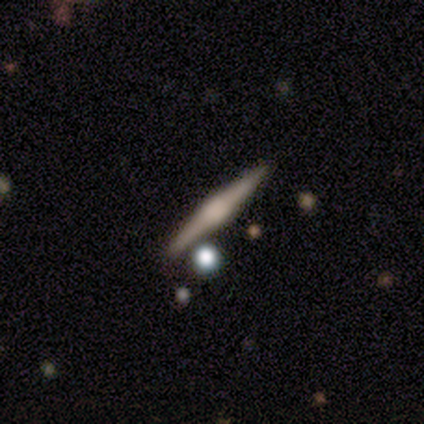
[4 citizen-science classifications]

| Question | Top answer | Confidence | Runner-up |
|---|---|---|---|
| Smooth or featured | featured or disk | 75% | star or artifact (25%) |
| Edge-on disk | yes | 100% | — |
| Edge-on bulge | rounded | 67% | none (33%) |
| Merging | none | 67% | minor disturbance (33%) |